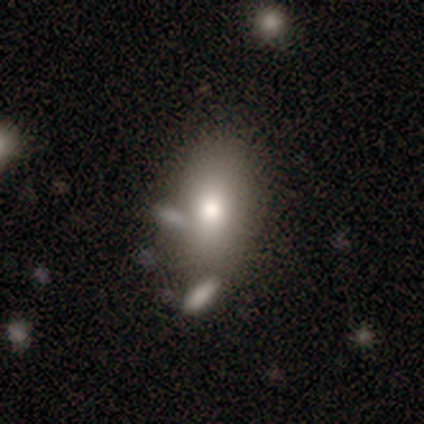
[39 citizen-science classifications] This is clearly a smooth galaxy (87%). How rounded: clearly in between (91%). Merging: possibly none (58%).